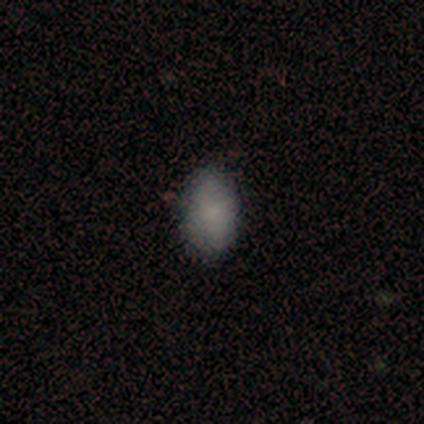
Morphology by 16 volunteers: smooth 81%, featured or disk 12%, star or artifact 6%. Down the decision tree: how rounded — in between (85%); merging — none (80%).